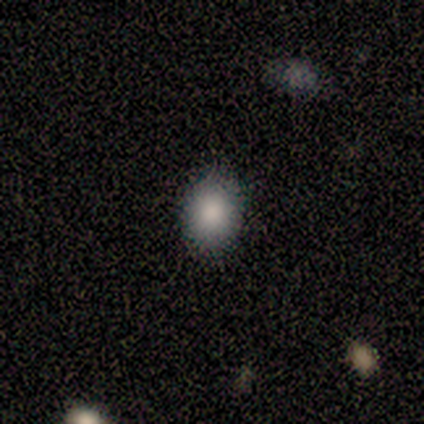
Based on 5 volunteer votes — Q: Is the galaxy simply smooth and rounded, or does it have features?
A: smooth — 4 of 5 (80%).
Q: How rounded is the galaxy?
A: round — 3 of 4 (75%).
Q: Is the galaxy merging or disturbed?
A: none — 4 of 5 (80%).